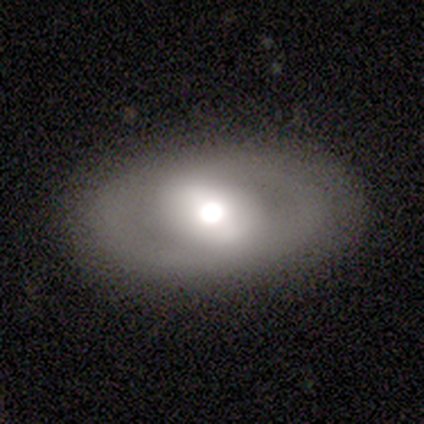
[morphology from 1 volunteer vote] This appears to be a smooth galaxy with no disk features (100%) that is in between round and cigar-shaped (100%). Merging: none (100%).